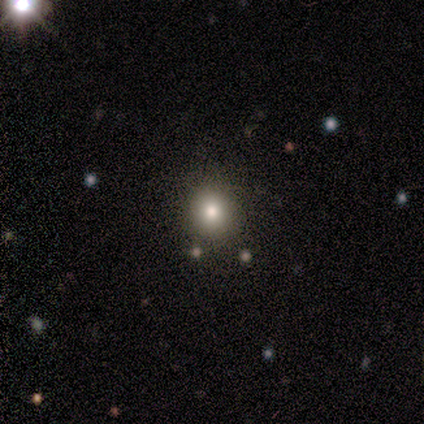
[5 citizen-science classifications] A smooth galaxy with no disk features (80%) that is round (100%).

Vote fractions:
- Smooth or featured? smooth: 80% / star or artifact: 20% / featured or disk: 0%
- How rounded? round: 100% / in between: 0% / cigar-shaped: 0%
- Merging? none: 100% / minor disturbance: 0% / major disturbance: 0% / merger: 0%